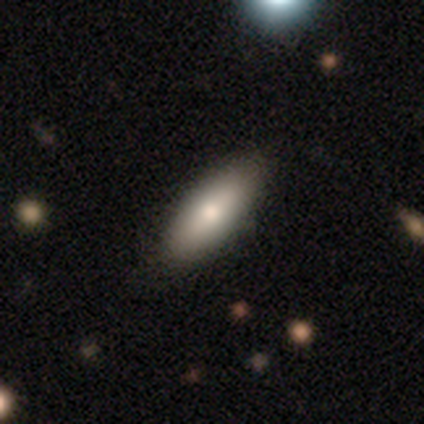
Volunteers were most divided on "how rounded": in between: 58%, cigar-shaped: 38%, round: 4%. More confident: merging — none (85%); smooth or featured — smooth (70%).